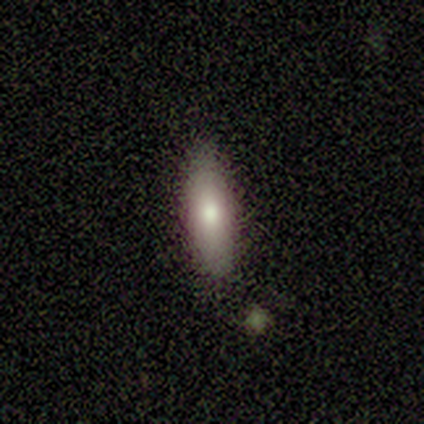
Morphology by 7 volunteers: Smooth or featured: smooth — 86% (featured or disk — 14%)
How rounded: cigar-shaped — 83% (in between — 17%)
Merging: none — 86% (minor disturbance — 14%)